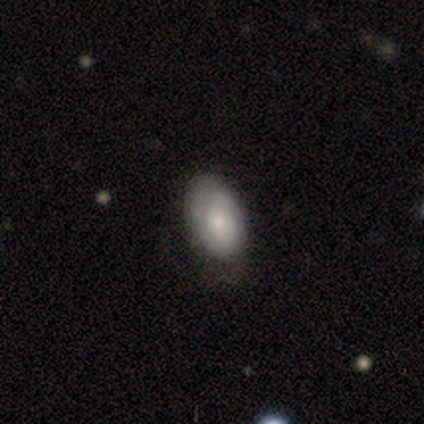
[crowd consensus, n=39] This is likely a smooth galaxy (64%). How rounded: clearly in between (92%). Merging: marginally none (44%).